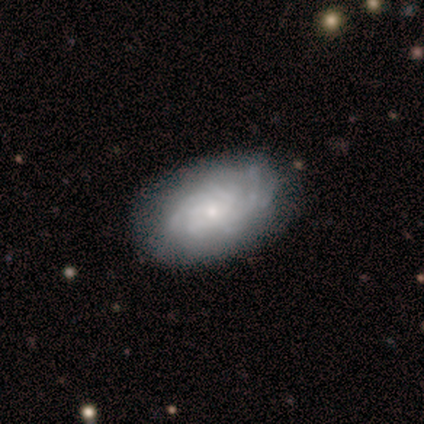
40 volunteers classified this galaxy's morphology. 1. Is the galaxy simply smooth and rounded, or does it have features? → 78% featured or disk, 20% smooth, 2% star or artifact.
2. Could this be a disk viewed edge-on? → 100% no, 0% yes.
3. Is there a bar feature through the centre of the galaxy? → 74% no, 26% weak, 0% strong.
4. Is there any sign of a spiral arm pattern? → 94% yes, 6% no.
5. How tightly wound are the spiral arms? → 59% tight, 34% medium, 7% loose.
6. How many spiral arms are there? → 45% more than 4, 34% can't tell, 10% 4, 7% 3, 3% 2, 0% 1.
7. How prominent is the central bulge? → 74% small, 26% moderate, 0% dominant, 0% large, 0% none.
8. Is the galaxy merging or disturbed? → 64% none, 28% minor disturbance, 5% merger, 3% major disturbance.